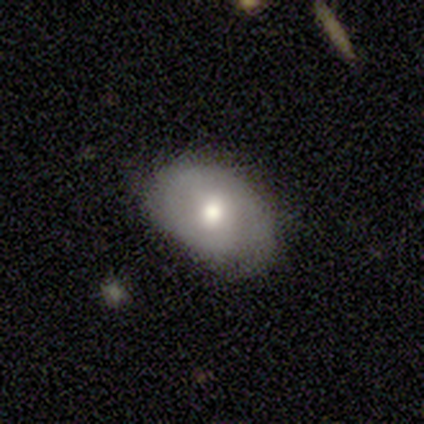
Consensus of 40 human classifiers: smooth-or-featured: smooth: 62% | featured or disk: 32% | star or artifact: 5%
  how-rounded: in between: 76% | round: 20% | cigar-shaped: 4%
  merging: none: 71% | minor disturbance: 29% | major disturbance: 0% | merger: 0%